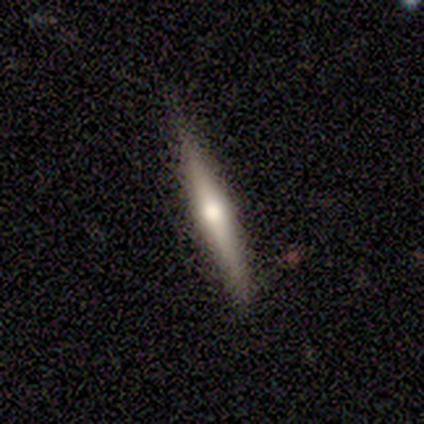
smooth-or-featured: featured or disk: 100% | smooth: 0% | star or artifact: 0%
  disk-edge-on: yes: 100% | no: 0%
    edge-on-bulge: none: 50% (tied) | rounded: 50% (tied) | boxy: 0%
  merging: none: 50% (tied) | minor disturbance: 50% (tied) | major disturbance: 0% | merger: 0%